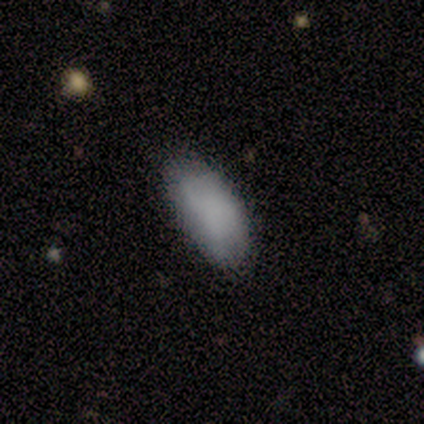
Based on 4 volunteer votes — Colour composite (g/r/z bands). It shows a star or artifact, not a galaxy (50%).